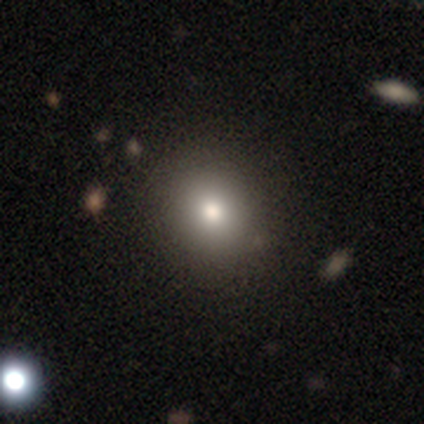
Smooth or featured?
  - smooth: 80% *
  - star or artifact: 20%
  - featured or disk: 0%
How rounded?
  - round: 100% *
  - in between: 0%
  - cigar-shaped: 0%
Merging?
  - none: 100% *
  - minor disturbance: 0%
  - major disturbance: 0%
  - merger: 0%